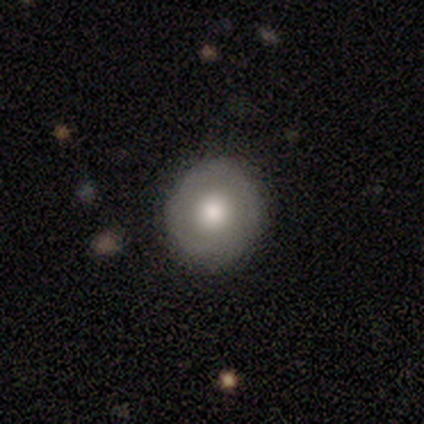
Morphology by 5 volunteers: Q: Smooth or featured?
A: smooth (60%); runner-up: featured or disk (40%)
Q: How rounded?
A: round (100%)
Q: Merging?
A: none (100%)